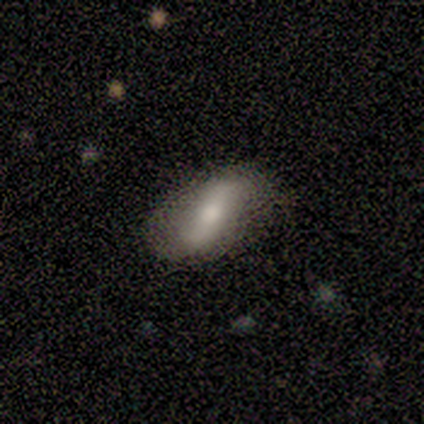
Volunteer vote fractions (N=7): Overall: featured or disk (71%). Edge-on disk: no (60%; yes 40%). Bar: strong (33%, tied with weak and no). Spiral arms: no (67%; yes 33%). Bulge size: moderate (67%; none 33%). Merging: major disturbance (50%; none 33%).